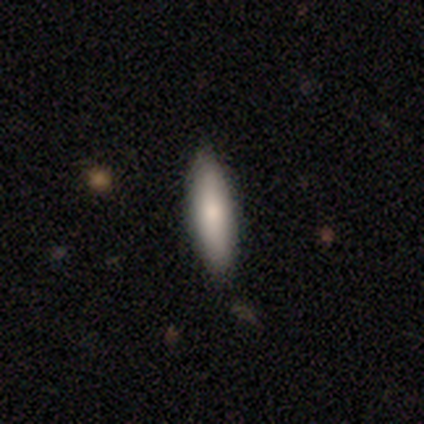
Smooth or featured?
  - smooth: 69% *
  - featured or disk: 26%
  - star or artifact: 5%
How rounded?
  - cigar-shaped: 63% *
  - in between: 37%
  - round: 0%
Merging?
  - none: 92% *
  - minor disturbance: 5%
  - major disturbance: 3%
  - merger: 0%